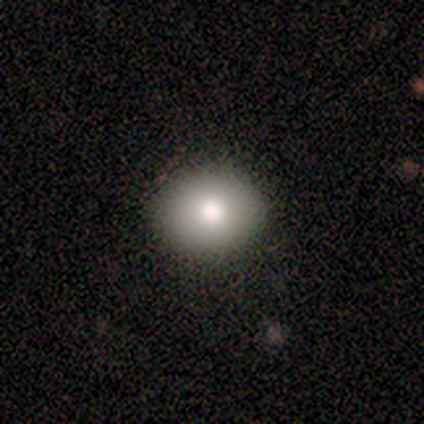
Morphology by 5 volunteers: smooth-or-featured: smooth: 100% | featured or disk: 0% | star or artifact: 0%
  how-rounded: round: 60% | in between: 40% | cigar-shaped: 0%
  merging: none: 100% | minor disturbance: 0% | major disturbance: 0% | merger: 0%